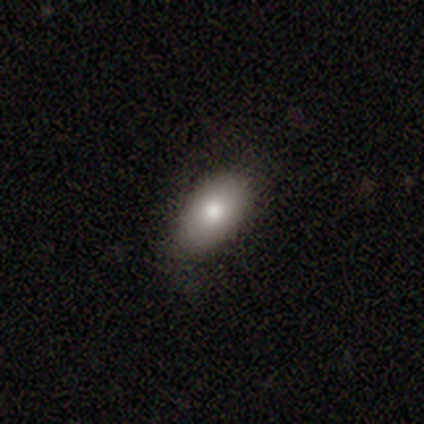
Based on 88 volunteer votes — Smooth or featured? 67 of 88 (76%) said smooth. How rounded? 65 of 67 (97%) said in between. Merging? 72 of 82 (88%) said none.